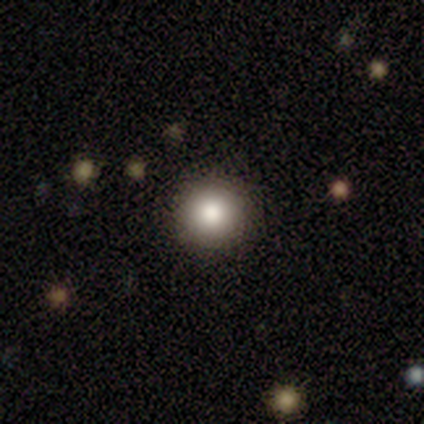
A smooth galaxy with no disk features (100%) that is round (100%).

Vote fractions:
- Smooth or featured? smooth: 100% / featured or disk: 0% / star or artifact: 0%
- How rounded? round: 100% / in between: 0% / cigar-shaped: 0%
- Merging? none: 75% / minor disturbance: 25% / major disturbance: 0% / merger: 0%